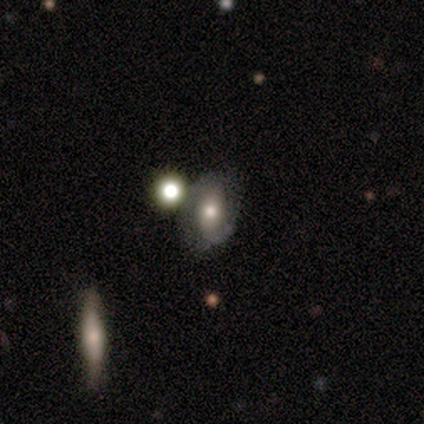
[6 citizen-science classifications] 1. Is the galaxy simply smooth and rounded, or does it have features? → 67% featured or disk, 17% smooth, 17% star or artifact.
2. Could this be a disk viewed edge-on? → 100% no, 0% yes.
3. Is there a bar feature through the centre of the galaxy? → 50% no, 25% strong, 25% weak.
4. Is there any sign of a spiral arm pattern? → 100% yes, 0% no.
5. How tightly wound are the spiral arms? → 50% medium (tied), 50% loose (tied), 0% tight.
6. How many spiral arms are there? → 100% 2, 0% 1, 0% 3, 0% 4, 0% more than 4, 0% can't tell.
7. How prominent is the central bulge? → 50% small, 25% large, 25% moderate, 0% dominant, 0% none.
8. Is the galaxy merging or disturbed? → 60% none, 20% minor disturbance, 20% merger, 0% major disturbance.